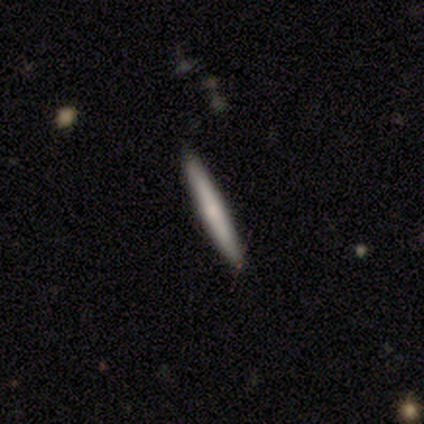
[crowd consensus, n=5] Morphology: type=featured or disk (80%); edge-on=yes (100%); edge-on bulge=none (50%, tied with rounded); merging=none (80%).